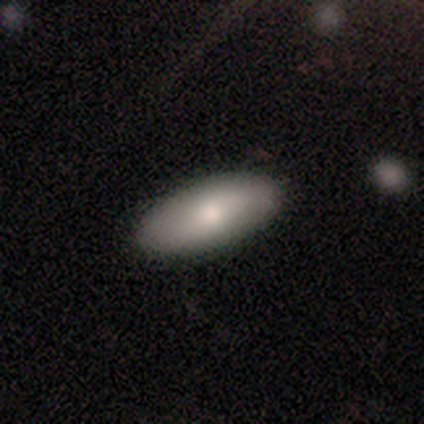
smooth_or_featured: smooth (p=0.60) [alt: featured or disk p=0.40]
how_rounded: in between (p=1.00)
merging: none (p=0.80) [alt: minor disturbance p=0.20]